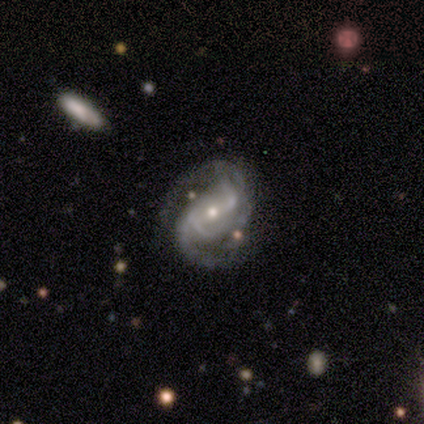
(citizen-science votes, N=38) Smooth or featured? 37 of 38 (97%) said featured or disk. Edge-on disk? 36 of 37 (97%) said no. Bar? 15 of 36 (42%) said strong. Spiral arms? 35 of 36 (97%) said yes. Spiral winding? 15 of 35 (43%) said medium. Spiral arm count? 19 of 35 (54%) said 2. Bulge size? 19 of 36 (53%) said small. Merging? 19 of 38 (50%) said none.